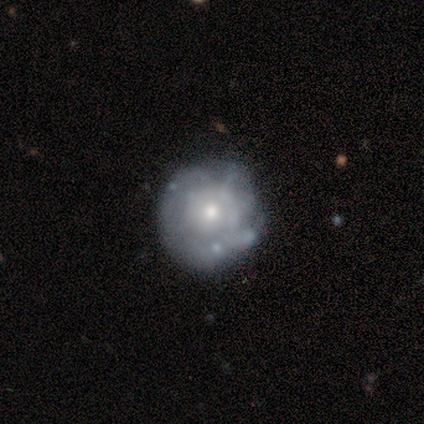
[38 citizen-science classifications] featured or disk 63%, smooth 26%, star or artifact 11%. Down the decision tree: edge-on disk — no (96%); bar — no (83%); spiral arms — no (74%); bulge size — small (48%); merging — none (65%).